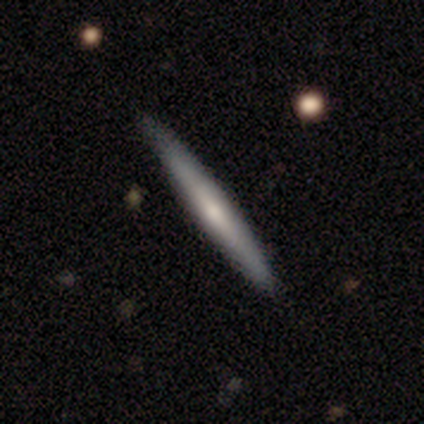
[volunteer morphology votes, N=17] Volunteers were most divided on "smooth or featured": smooth: 53%, featured or disk: 47%, star or artifact: 0%. More confident: how rounded — cigar-shaped (89%); merging — none (82%).